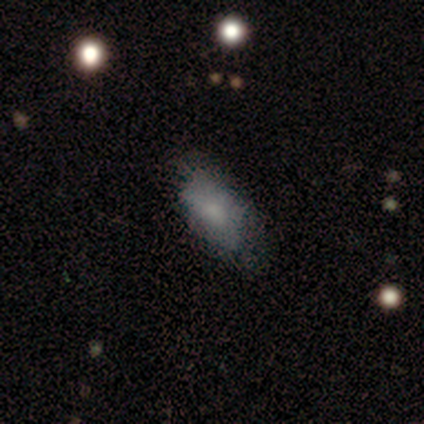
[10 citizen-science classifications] This is likely a smooth galaxy (70%). How rounded: clearly in between (100%). Merging: possibly minor disturbance (50%).